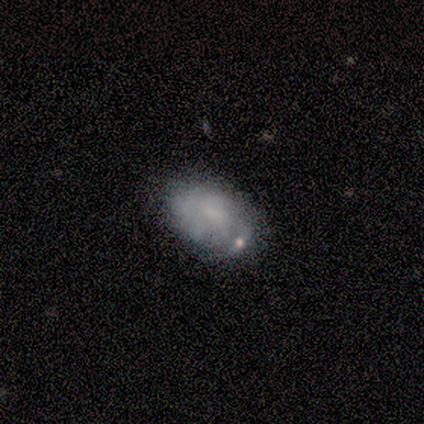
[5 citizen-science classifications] A featured or disk galaxy (60%) with no bar (100%), no spiral arms (67%) and no central bulge (100%). Merging: none (80%).